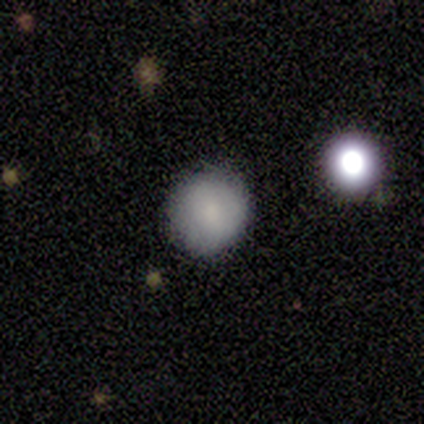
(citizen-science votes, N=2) Smooth or featured? smooth (100%)
How rounded? round (100%)
Merging? none (50%, tied with minor disturbance)